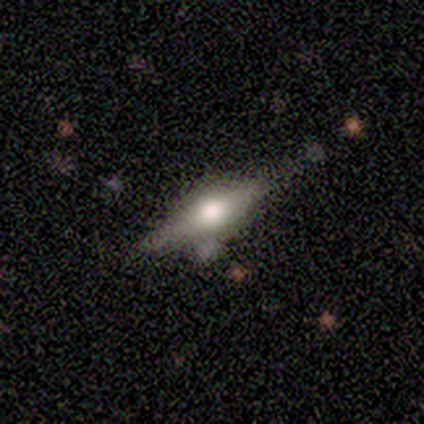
This appears to be a smooth galaxy with no disk features (60%) that is cigar-shaped (67%). Merging: none (80%).